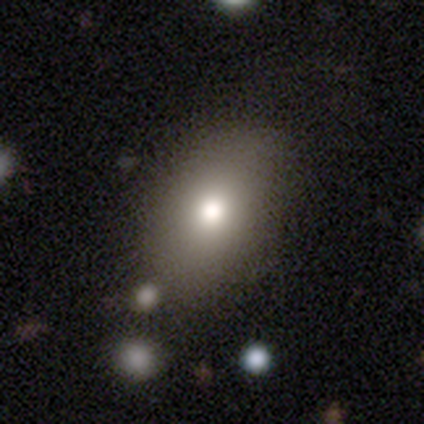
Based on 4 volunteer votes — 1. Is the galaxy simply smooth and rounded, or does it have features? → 50% smooth, 25% featured or disk, 25% star or artifact.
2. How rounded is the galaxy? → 50% round (tied), 50% in between (tied), 0% cigar-shaped.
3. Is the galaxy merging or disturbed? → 100% none, 0% minor disturbance, 0% major disturbance, 0% merger.